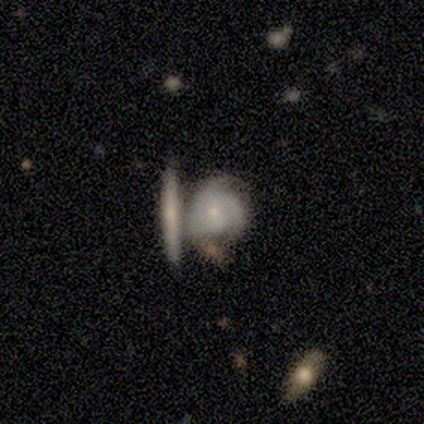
Overall: featured or disk (60%; smooth 40%). Edge-on disk: yes (67%; no 33%). Edge-on bulge: none (100%). Merging: major disturbance (40%, tied with merger).